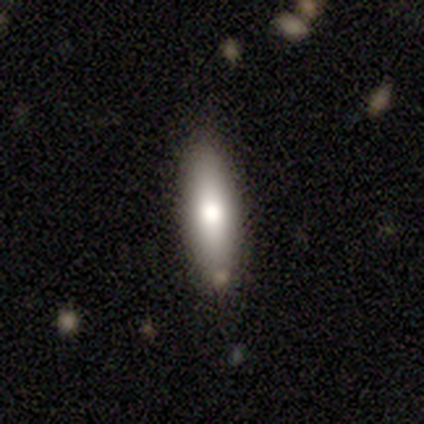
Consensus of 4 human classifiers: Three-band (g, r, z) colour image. It shows a smooth galaxy with no disk features (75%) that is in between round and cigar-shaped (100%). Merging: none (100%).